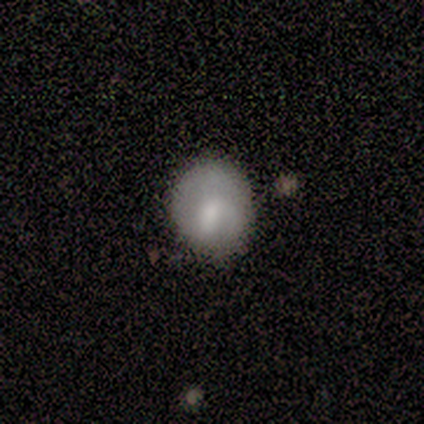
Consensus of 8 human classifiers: Volunteers were most divided on "smooth or featured" (2-way tie): smooth: 50%, featured or disk: 50%, star or artifact: 0%; "merging" (2-way tie): none: 38%, minor disturbance: 38%, major disturbance: 25%, merger: 0%. More confident: how rounded — round (75%).